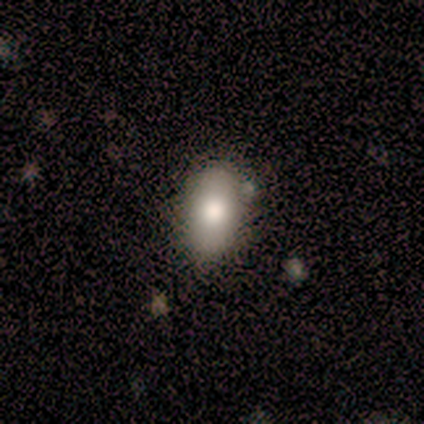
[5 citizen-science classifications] A smooth galaxy with no disk features (100%) that is in between round and cigar-shaped (80%).

Vote fractions:
- Smooth or featured? smooth: 100% / featured or disk: 0% / star or artifact: 0%
- How rounded? in between: 80% / round: 20% / cigar-shaped: 0%
- Merging? none: 100% / minor disturbance: 0% / major disturbance: 0% / merger: 0%